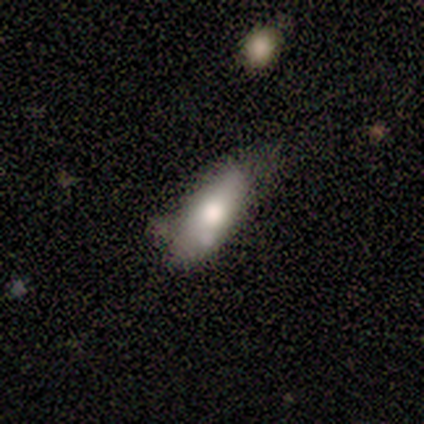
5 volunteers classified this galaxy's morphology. type=smooth (80%); roundness=in between (100%); merging=minor disturbance (50%).